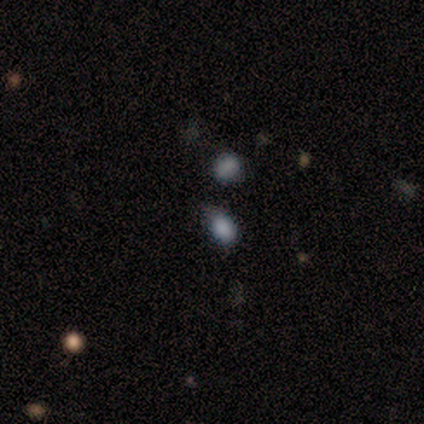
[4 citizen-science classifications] smooth_or_featured: smooth (p=0.75) [alt: star or artifact p=0.25]
how_rounded: round (p=0.67) [alt: in between p=0.33]
merging: none (p=0.67) [alt: merger p=0.33]